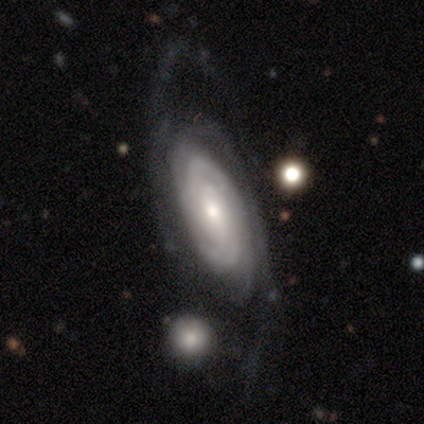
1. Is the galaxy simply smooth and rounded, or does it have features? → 87% featured or disk, 10% smooth, 3% star or artifact.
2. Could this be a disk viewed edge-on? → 92% no, 8% yes.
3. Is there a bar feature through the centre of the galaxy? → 73% no, 16% weak, 10% strong.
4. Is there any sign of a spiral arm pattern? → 98% yes, 2% no.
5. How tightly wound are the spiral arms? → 75% tight, 12% medium, 12% loose.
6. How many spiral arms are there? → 44% 2, 31% can't tell, 10% 3, 10% 4, 4% more than 4, 0% 1.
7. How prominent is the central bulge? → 59% moderate, 33% small, 6% large, 2% dominant, 0% none.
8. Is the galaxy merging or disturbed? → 39% none, 31% major disturbance, 22% minor disturbance, 8% merger.